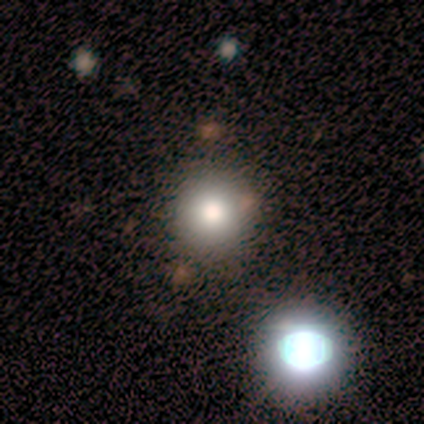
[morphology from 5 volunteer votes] Smooth or featured: featured or disk — 40% (tied with star or artifact — 40%)
Edge-on disk: no — 100%
Bar: no — 100%
Spiral arms: no — 100%
Bulge size: moderate — 100%
Merging: none — 100%